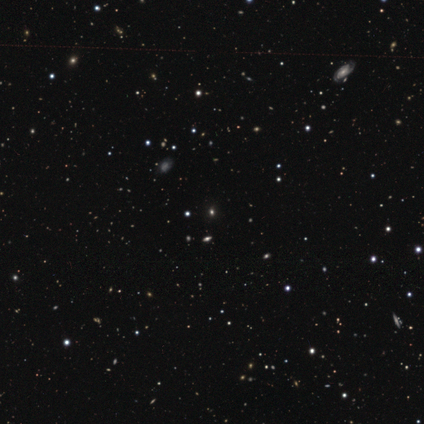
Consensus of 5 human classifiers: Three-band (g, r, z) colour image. It shows a smooth galaxy with no disk features (60%) that is round (100%). Merging: none (75%).